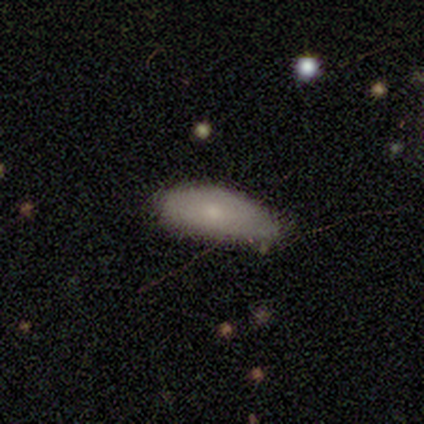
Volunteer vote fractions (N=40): Volunteers were most divided on "merging": minor disturbance: 36%, none: 33%, merger: 8%, major disturbance: 5%. More confident: how rounded — in between (90%); smooth or featured — smooth (72%).